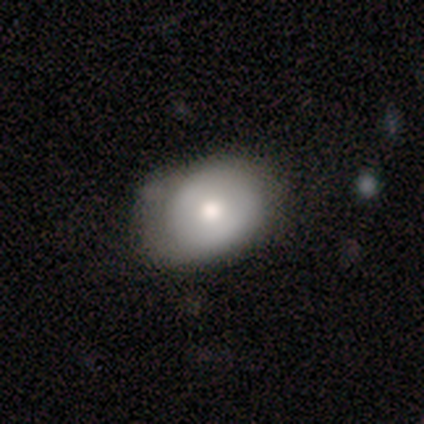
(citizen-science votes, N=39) Overall: smooth (67%). How rounded: in between (58%; round 42%). Merging: none (72%).